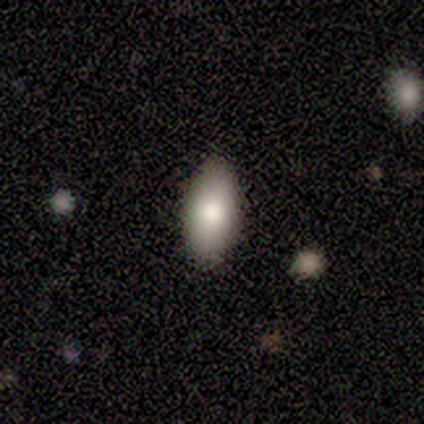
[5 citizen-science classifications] smooth 60%, featured or disk 40%, star or artifact 0%. Down the decision tree: how rounded — in between (67%); merging — none (80%).